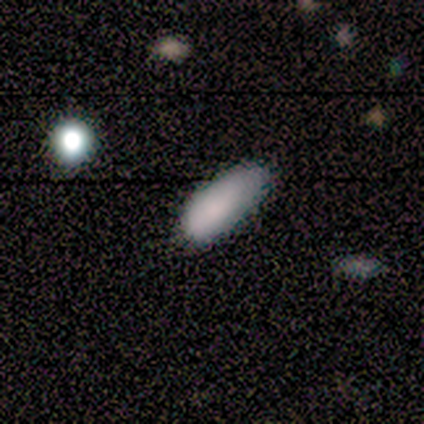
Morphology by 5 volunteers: type=smooth (100%); roundness=in between (60%); merging=none (100%).